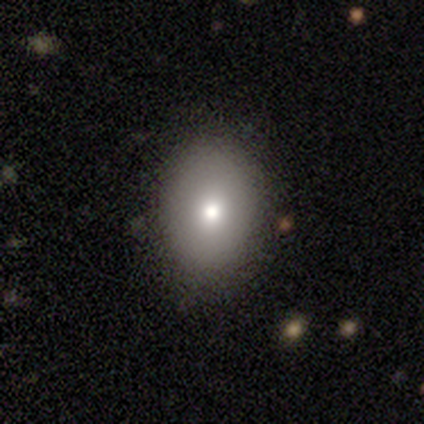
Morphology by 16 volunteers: This is clearly a smooth galaxy (81%). How rounded: likely in between (62%). Merging: likely none (79%).